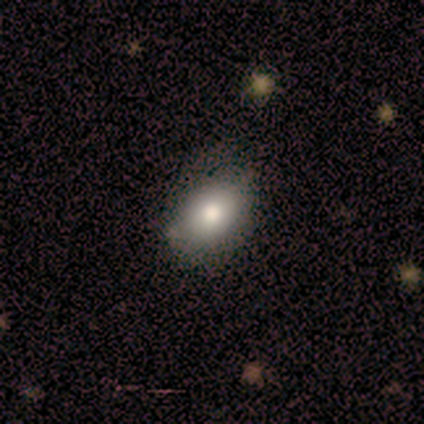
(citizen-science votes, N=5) Smooth or featured? 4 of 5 (80%) said smooth. How rounded? 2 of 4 (50%) said in between. Merging? 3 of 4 (75%) said none.